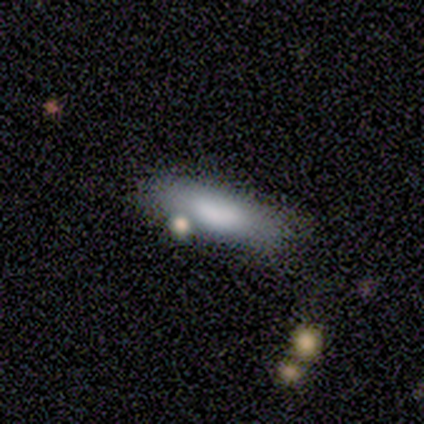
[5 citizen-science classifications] smooth_or_featured: smooth (p=1.00)
how_rounded: in between (p=0.60) [alt: cigar-shaped p=0.40]
merging: none (p=1.00)